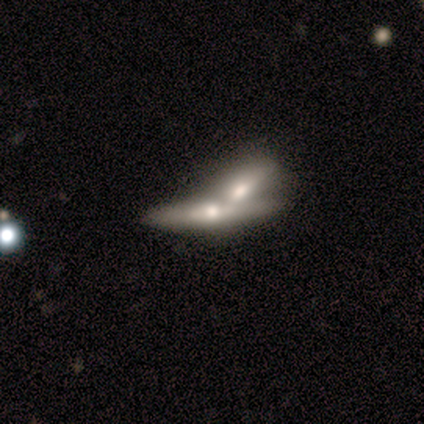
smooth-or-featured: featured or disk: 56% | smooth: 44% | star or artifact: 0%
  disk-edge-on: yes: 80% | no: 20%
    edge-on-bulge: rounded: 75% | none: 25% | boxy: 0%
  merging: merger: 89% | none: 11% | minor disturbance: 0% | major disturbance: 0%